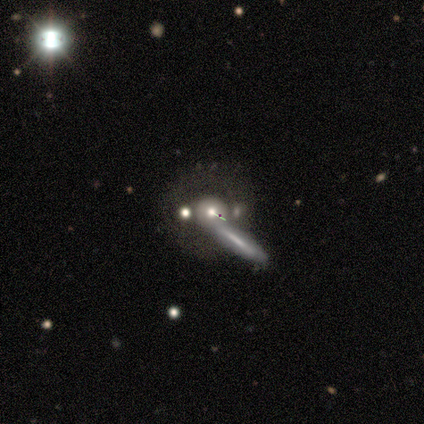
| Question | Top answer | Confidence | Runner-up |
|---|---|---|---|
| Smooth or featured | smooth | 70% | featured or disk (30%) |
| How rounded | cigar-shaped | 71% | round (14%) |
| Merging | none | 50% | tied: merger (50%) |